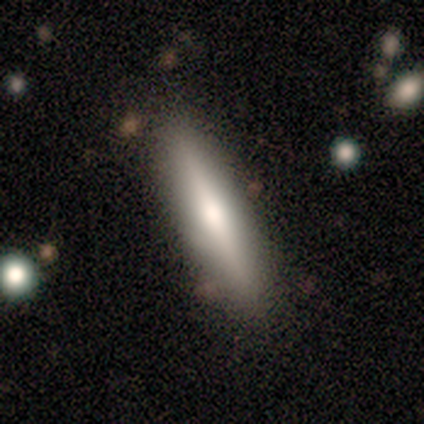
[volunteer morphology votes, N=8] smooth-or-featured: smooth: 75% | featured or disk: 25% | star or artifact: 0%
  how-rounded: cigar-shaped: 67% | in between: 33% | round: 0%
  merging: none: 62% | minor disturbance: 25% | merger: 12% | major disturbance: 0%